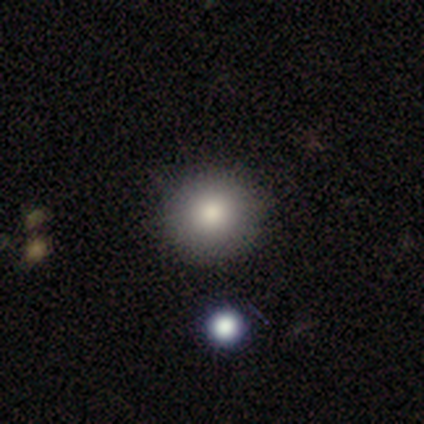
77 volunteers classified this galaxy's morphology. type=smooth (87%); roundness=round (97%); merging=none (50%).